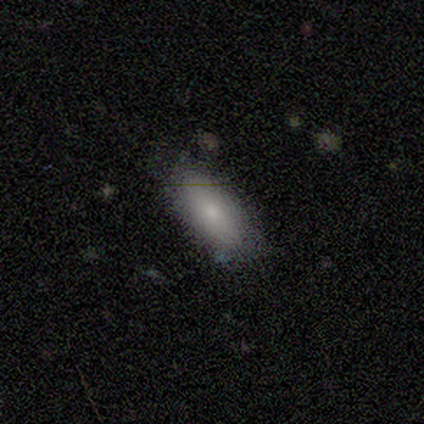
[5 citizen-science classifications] Smooth or featured? smooth (100%)
How rounded? in between (100%)
Merging? none (80%)